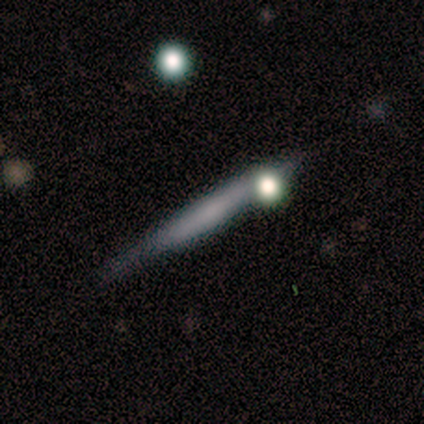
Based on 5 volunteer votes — Overall: smooth (80%). How rounded: cigar-shaped (100%). Merging: none (80%).